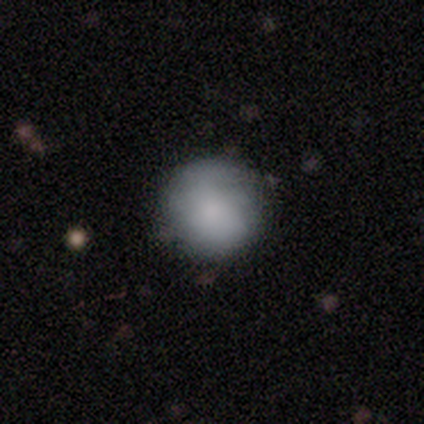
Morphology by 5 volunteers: A smooth galaxy with no disk features (80%) that is round (100%). Merging: none (60%).